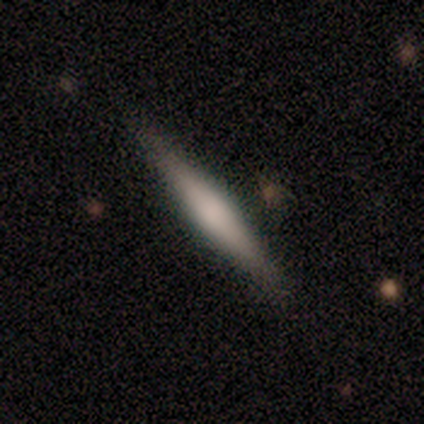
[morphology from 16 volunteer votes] This is possibly a featured or disk galaxy (56%). It is clearly viewed edge-on (100%). Edge-on bulge: likely rounded (78%). Merging: clearly none (93%).